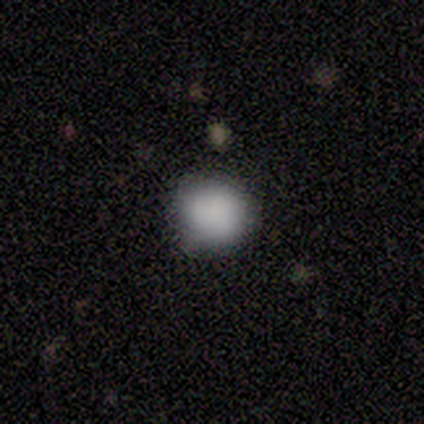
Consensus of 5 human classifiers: A smooth galaxy with no disk features (100%) that is round (80%).

Vote fractions:
- Smooth or featured? smooth: 100% / featured or disk: 0% / star or artifact: 0%
- How rounded? round: 80% / in between: 20% / cigar-shaped: 0%
- Merging? none: 100% / minor disturbance: 0% / major disturbance: 0% / merger: 0%